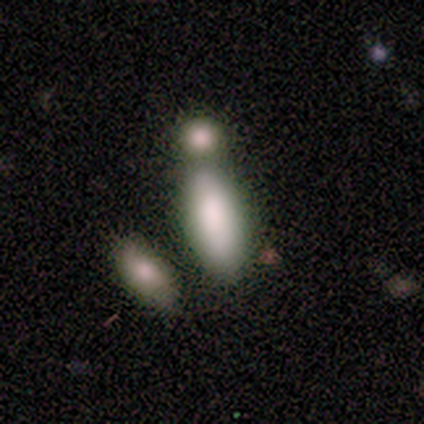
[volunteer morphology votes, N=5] Smooth or featured? smooth (100%)
How rounded? in between (80%)
Merging? merger (80%)